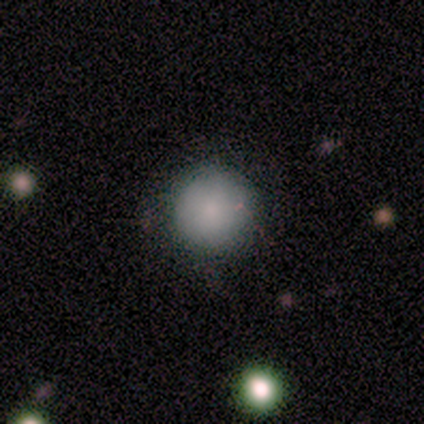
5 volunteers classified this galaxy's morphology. Overall: smooth (60%; featured or disk 40%). How rounded: round (100%). Merging: none (100%).